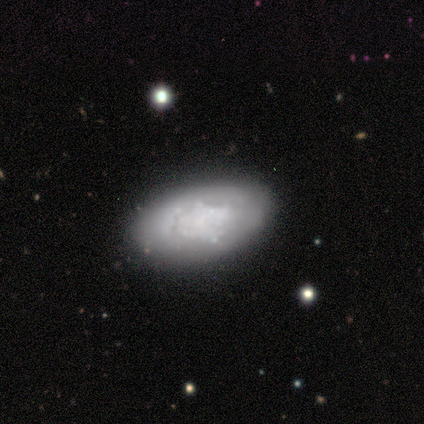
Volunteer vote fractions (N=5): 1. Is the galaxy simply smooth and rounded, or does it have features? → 100% featured or disk, 0% smooth, 0% star or artifact.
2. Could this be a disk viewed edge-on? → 80% no, 20% yes.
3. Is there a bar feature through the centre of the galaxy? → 100% no, 0% strong, 0% weak.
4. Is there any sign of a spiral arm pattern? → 100% no, 0% yes.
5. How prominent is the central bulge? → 100% none, 0% dominant, 0% large, 0% moderate, 0% small.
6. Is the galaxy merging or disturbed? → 60% none, 40% minor disturbance, 0% major disturbance, 0% merger.